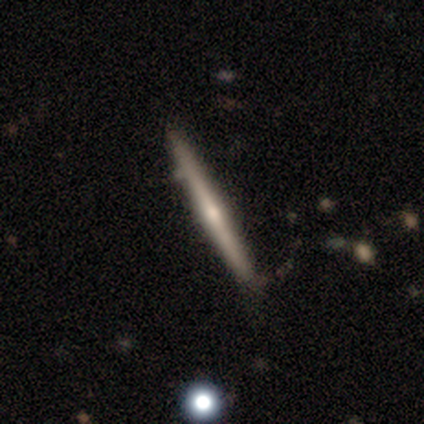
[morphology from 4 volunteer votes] Volunteers were most divided on "smooth or featured": featured or disk: 50%, smooth: 25%, star or artifact: 25%. More confident: edge-on disk — yes (100%); edge-on bulge — rounded (100%); merging — none (67%).